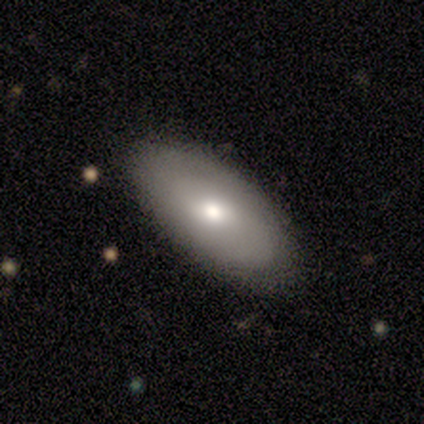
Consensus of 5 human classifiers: Volunteers were most divided on "smooth or featured": featured or disk: 60%, smooth: 40%, star or artifact: 0%. More confident: edge-on disk — no (100%); bulge size — moderate (100%); merging — none (100%); bar — no (67%); spiral arms — no (67%).